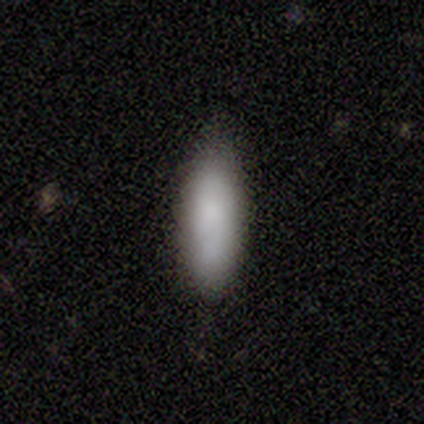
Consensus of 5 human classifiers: Morphology: type=smooth (80%); roundness=in between (75%); merging=none (60%).